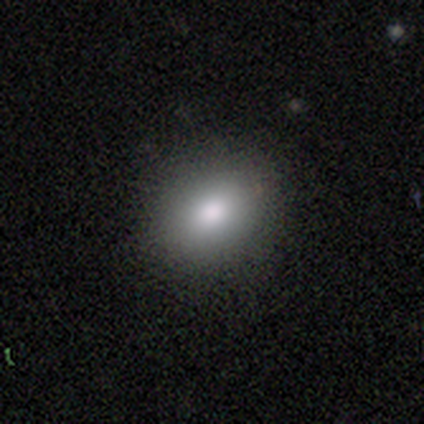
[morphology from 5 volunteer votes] Smooth or featured? smooth (100%)
How rounded? round (60%)
Merging? none (80%)